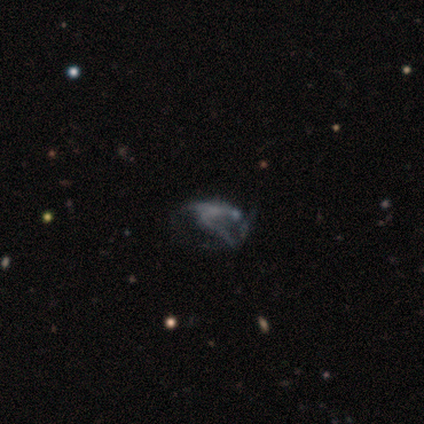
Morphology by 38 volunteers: Smooth or featured?
  - featured or disk: 61% *
  - star or artifact: 24%
  - smooth: 16%
Edge-on disk?
  - no: 100% *
  - yes: 0%
Bar?
  - no: 78% *
  - weak: 22%
  - strong: 0%
Spiral arms?
  - no: 61% *
  - yes: 39%
Bulge size?
  - none: 78% *
  - small: 17%
  - moderate: 4%
  - dominant: 0%
  - large: 0%
Merging?
  - major disturbance: 66% *
  - none: 21%
  - merger: 10%
  - minor disturbance: 3%